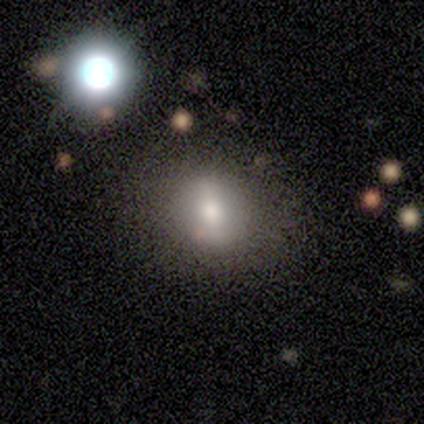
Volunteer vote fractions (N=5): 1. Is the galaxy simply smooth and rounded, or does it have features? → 60% smooth, 40% featured or disk, 0% star or artifact.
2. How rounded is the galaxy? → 100% round, 0% in between, 0% cigar-shaped.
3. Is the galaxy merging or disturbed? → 100% none, 0% minor disturbance, 0% major disturbance, 0% merger.